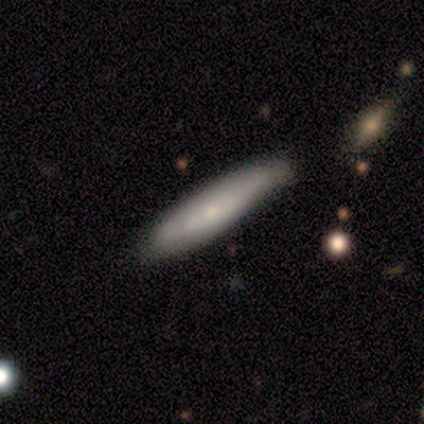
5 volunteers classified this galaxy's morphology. Smooth or featured? 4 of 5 (80%) said smooth. How rounded? 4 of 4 (100%) said cigar-shaped. Merging? 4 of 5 (80%) said none.